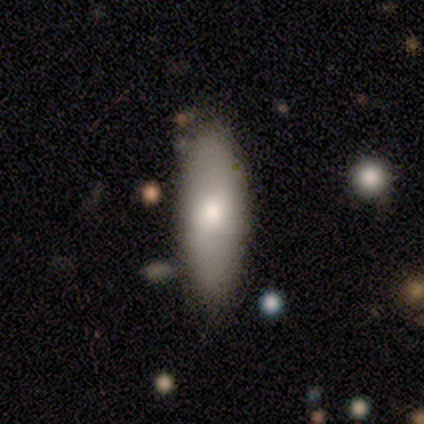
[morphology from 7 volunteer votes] A smooth galaxy with no disk features (86%) that is in between round and cigar-shaped (67%). Merging: none (57%).